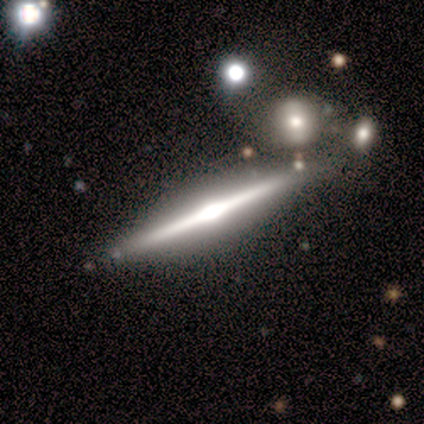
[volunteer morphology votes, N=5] Smooth or featured? 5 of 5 (100%) said featured or disk. Edge-on disk? 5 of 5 (100%) said yes. Edge-on bulge? 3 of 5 (60%) said rounded. Merging? 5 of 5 (100%) said none.